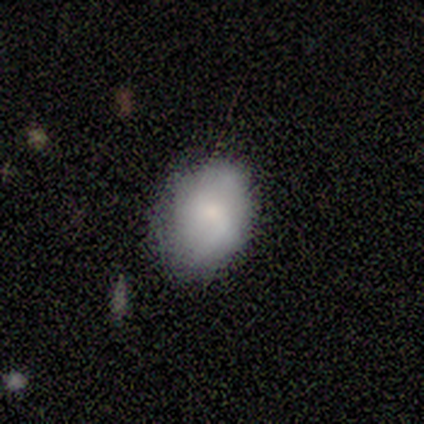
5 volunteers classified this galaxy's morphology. A smooth galaxy with no disk features (60%) that is in between round and cigar-shaped (67%). Merging: none (75%).